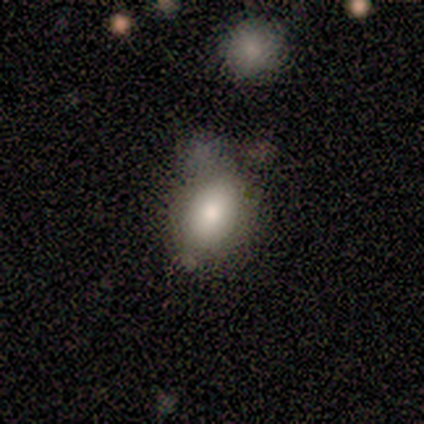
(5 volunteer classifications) This is likely a featured or disk galaxy (60%). It is clearly not viewed edge-on (100%). Bar: clearly no (100%). Spiral arm pattern: clearly no (100%). Central bulge: marginally dominant (33%, tied with large and moderate). Merging: likely none (60%).